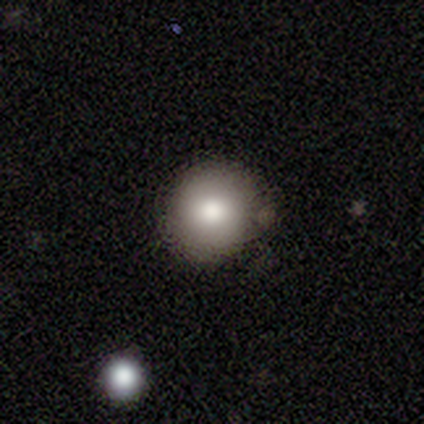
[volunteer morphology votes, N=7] This is clearly a smooth galaxy (86%). How rounded: clearly round (83%). Merging: clearly none (100%).